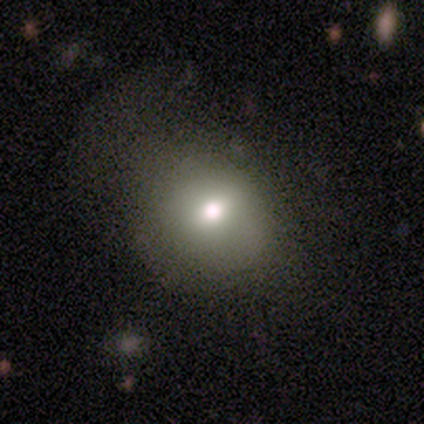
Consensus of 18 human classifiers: A smooth galaxy with no disk features (78%) that is round (79%). Merging: none (53%).